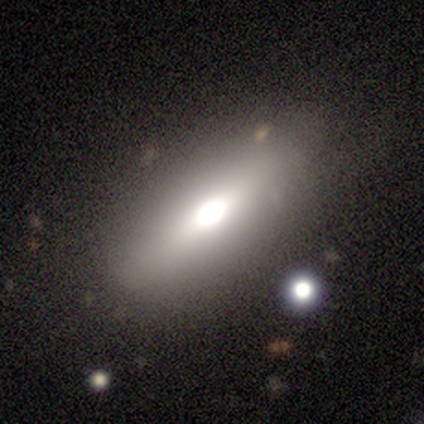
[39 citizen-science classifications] Volunteers were most divided on "smooth or featured": smooth: 74%, featured or disk: 21%, star or artifact: 5%. More confident: merging — none (81%); how rounded — in between (76%).